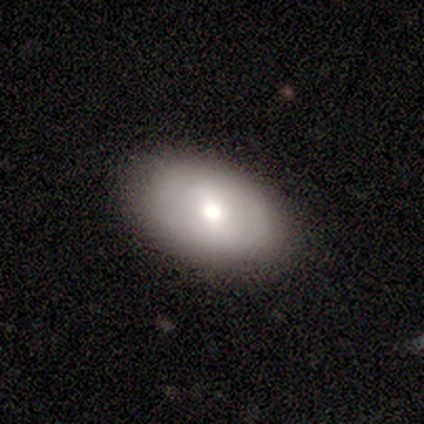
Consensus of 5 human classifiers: Q: Smooth or featured?
A: featured or disk (60%); runner-up: smooth (40%)
Q: Edge-on disk?
A: no (100%)
Q: Bar?
A: weak (67%); runner-up: no (33%)
Q: Spiral arms?
A: no (100%)
Q: Bulge size?
A: large (67%); runner-up: dominant (33%)
Q: Merging?
A: none (100%)